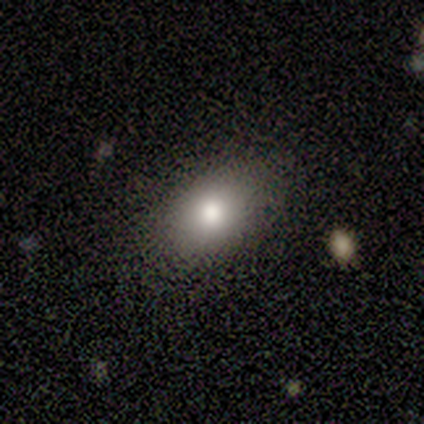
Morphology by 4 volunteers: This appears to be a smooth galaxy with no disk features (100%) that is in between round and cigar-shaped (75%). Merging: none (75%).